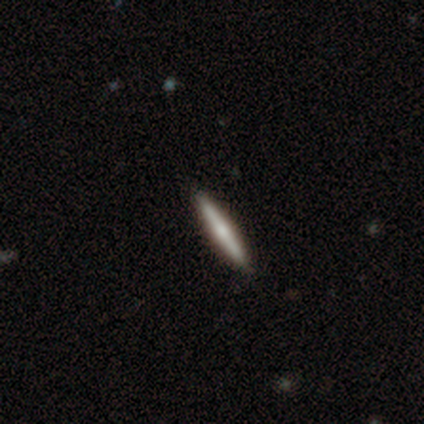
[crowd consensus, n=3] This appears to be a featured or disk galaxy (100%) viewed edge-on (100%) with a rounded central bulge (100%). Merging: none (100%).